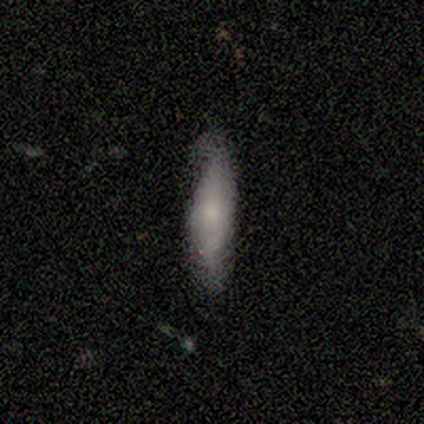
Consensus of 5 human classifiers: smooth-or-featured: smooth: 80% | featured or disk: 20% | star or artifact: 0%
  how-rounded: cigar-shaped: 75% | in between: 25% | round: 0%
  merging: none: 80% | minor disturbance: 20% | major disturbance: 0% | merger: 0%